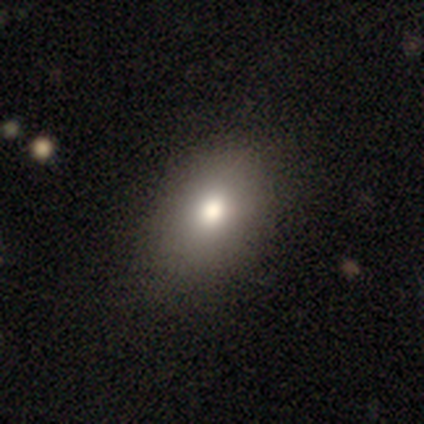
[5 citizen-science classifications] Q: Smooth or featured?
A: smooth (60%); runner-up: featured or disk (20%)
Q: How rounded?
A: in between (100%)
Q: Merging?
A: none (75%); runner-up: major disturbance (25%)